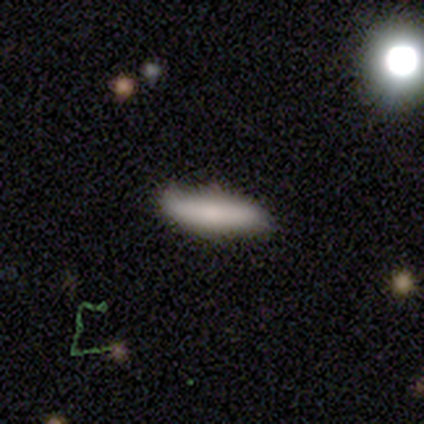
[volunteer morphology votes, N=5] Volunteers were most divided on "merging": none: 60%, minor disturbance: 40%, major disturbance: 0%, merger: 0%. More confident: smooth or featured — smooth (100%); how rounded — cigar-shaped (80%).